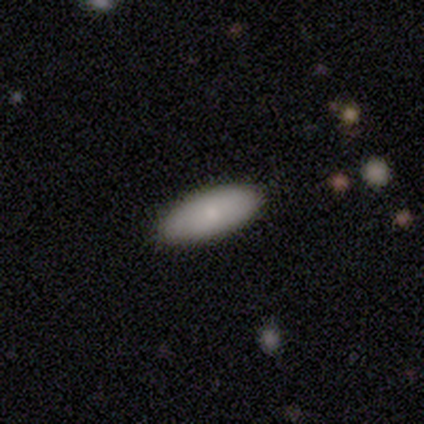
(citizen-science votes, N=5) This is clearly a smooth galaxy (100%). How rounded: clearly in between (100%). Merging: clearly none (100%).